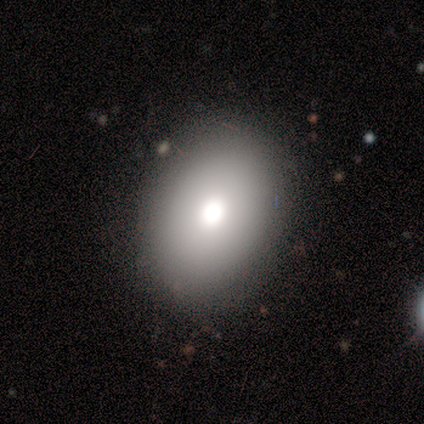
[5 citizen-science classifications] Overall: smooth (80%). How rounded: round (50%, tied with in between). Merging: none (80%).